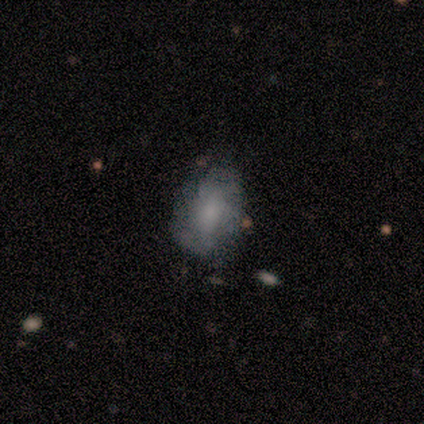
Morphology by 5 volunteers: type=featured or disk (80%); edge-on=no (100%); bar=no (75%); spiral arms=yes (100%); winding=medium (50%); arm count=more than 4 (50%, tied with can't tell); bulge=moderate (50%, tied with small); merging=none (100%).